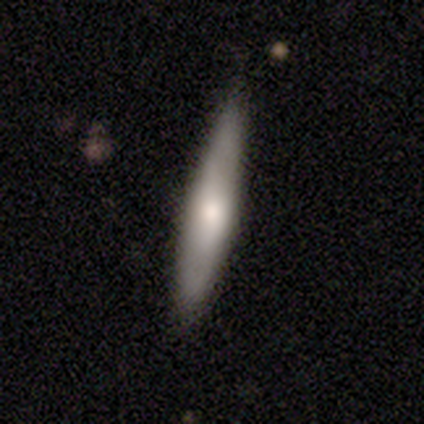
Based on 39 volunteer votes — Q: Smooth or featured?
A: smooth (59%); runner-up: featured or disk (33%)
Q: How rounded?
A: cigar-shaped (87%); runner-up: in between (13%)
Q: Merging?
A: none (75%); runner-up: minor disturbance (22%)